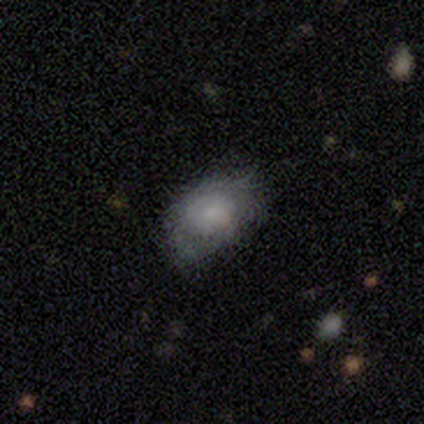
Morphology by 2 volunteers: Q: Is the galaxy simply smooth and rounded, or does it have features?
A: smooth — 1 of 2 (50%, tied with featured or disk).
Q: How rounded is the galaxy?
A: in between — 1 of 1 (100%).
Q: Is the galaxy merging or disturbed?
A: none — 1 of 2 (50%, tied with major disturbance).